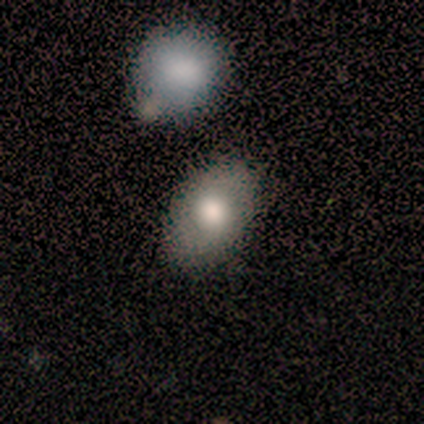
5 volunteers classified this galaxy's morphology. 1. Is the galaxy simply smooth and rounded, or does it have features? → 60% smooth, 40% star or artifact, 0% featured or disk.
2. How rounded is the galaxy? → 100% in between, 0% round, 0% cigar-shaped.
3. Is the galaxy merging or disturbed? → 67% minor disturbance, 33% none, 0% major disturbance, 0% merger.